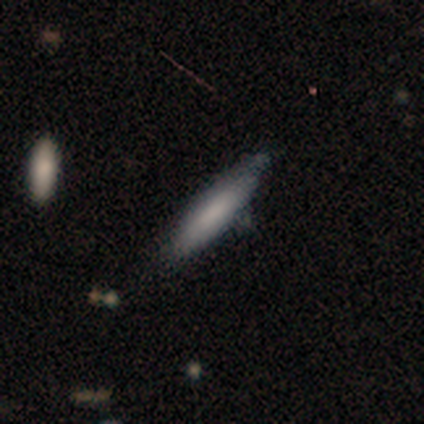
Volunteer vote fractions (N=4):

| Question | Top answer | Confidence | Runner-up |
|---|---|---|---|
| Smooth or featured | smooth | 100% | — |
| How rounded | cigar-shaped | 100% | — |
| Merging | none | 75% | minor disturbance (25%) |